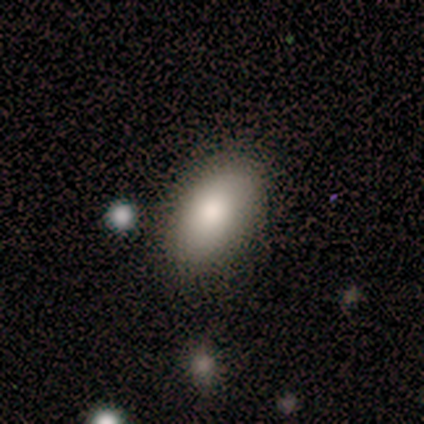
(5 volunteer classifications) Smooth or featured: smooth — 80% (featured or disk — 20%)
How rounded: in between — 100%
Merging: none — 100%